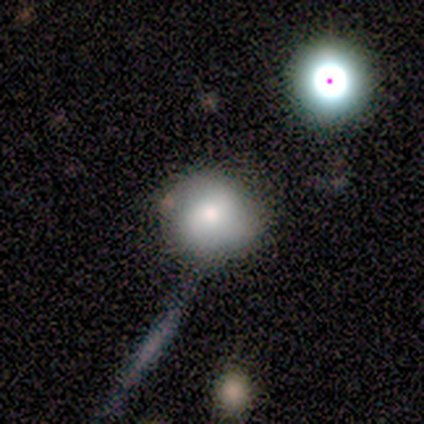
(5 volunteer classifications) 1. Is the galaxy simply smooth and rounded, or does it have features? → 80% smooth, 20% featured or disk, 0% star or artifact.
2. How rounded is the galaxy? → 75% round, 25% in between, 0% cigar-shaped.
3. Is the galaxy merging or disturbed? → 40% none (tied), 40% minor disturbance (tied), 20% merger, 0% major disturbance.